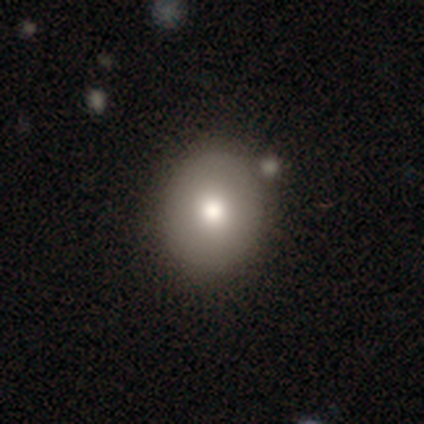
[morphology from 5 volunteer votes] smooth_or_featured: smooth (p=0.80) [alt: star or artifact p=0.20]
how_rounded: round (p=0.75) [alt: in between p=0.25]
merging: none (p=0.75) [alt: minor disturbance p=0.25]